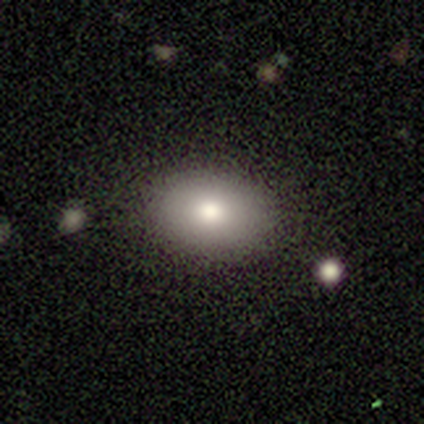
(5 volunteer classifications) This appears to be a smooth galaxy with no disk features (100%) that is in between round and cigar-shaped (80%). Merging: none (100%).